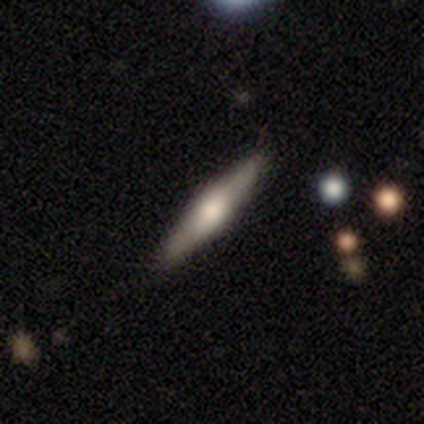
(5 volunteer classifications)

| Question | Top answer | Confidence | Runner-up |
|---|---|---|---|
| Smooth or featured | featured or disk | 80% | smooth (20%) |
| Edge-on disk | yes | 100% | — |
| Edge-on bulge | rounded | 100% | — |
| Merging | none | 100% | — |